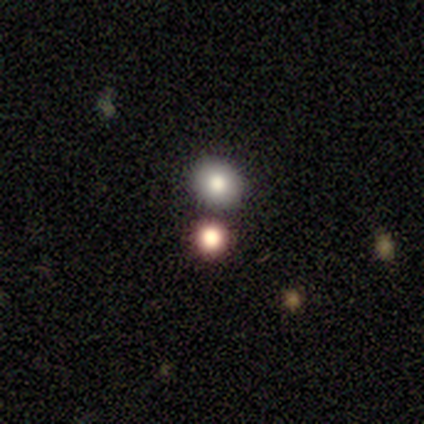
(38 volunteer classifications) Overall: smooth (45%; star or artifact 39%). How rounded: round (82%). Merging: none (70%; merger 30%).